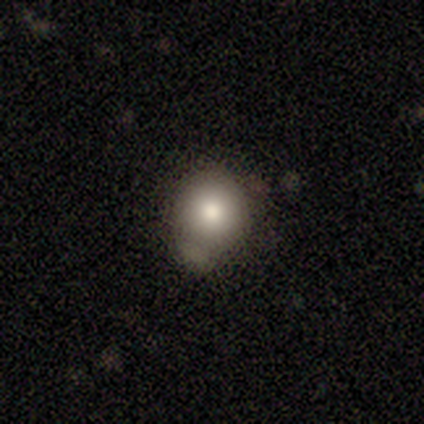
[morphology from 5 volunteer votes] smooth 80%, featured or disk 20%, star or artifact 0%. Down the decision tree: how rounded — round (50%, tied with in between); merging — none (60%).